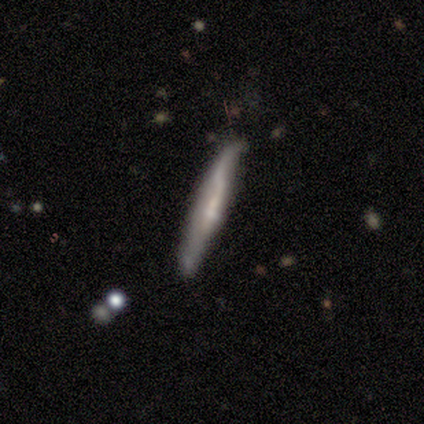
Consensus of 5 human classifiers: Smooth or featured? smooth (40%, tied with featured or disk)
How rounded? cigar-shaped (100%)
Merging? none (50%, tied with minor disturbance)